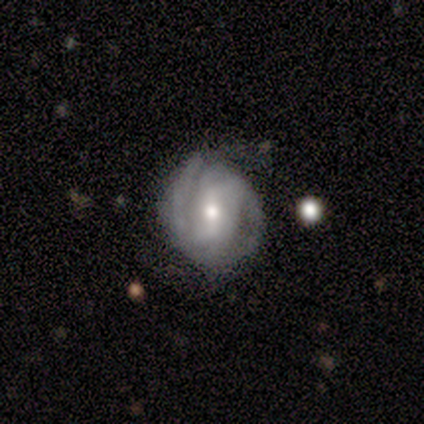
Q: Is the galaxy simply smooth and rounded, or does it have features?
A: featured or disk — 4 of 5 (80%).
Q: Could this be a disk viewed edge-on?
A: no — 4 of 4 (100%).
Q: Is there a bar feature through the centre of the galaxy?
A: strong — 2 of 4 (50%, tied with weak).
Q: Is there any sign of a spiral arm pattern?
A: yes — 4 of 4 (100%).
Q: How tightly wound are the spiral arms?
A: tight — 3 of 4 (75%).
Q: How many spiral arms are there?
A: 2 — 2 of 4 (50%).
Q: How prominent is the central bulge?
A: moderate — 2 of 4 (50%, tied with small).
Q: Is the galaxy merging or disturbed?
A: none — 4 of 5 (80%).